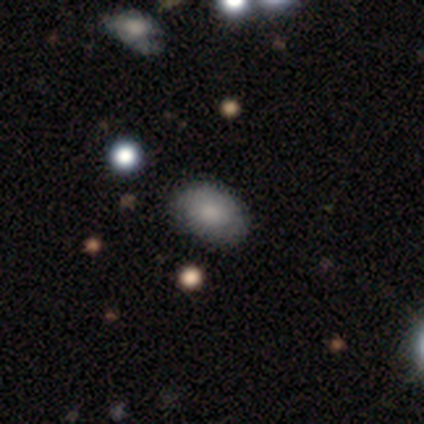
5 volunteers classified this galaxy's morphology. Smooth or featured? 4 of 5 (80%) said smooth. How rounded? 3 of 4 (75%) said in between. Merging? 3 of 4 (75%) said none.